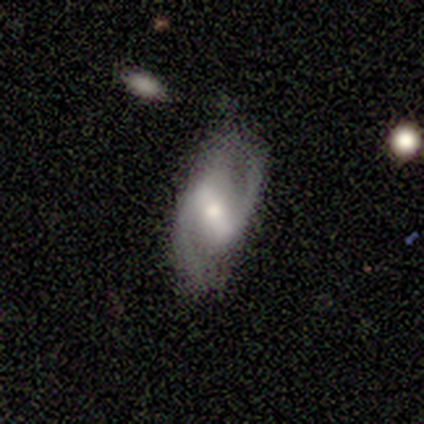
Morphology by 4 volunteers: Volunteers were most divided on "spiral winding" (2-way tie): medium: 50%, loose: 50%, tight: 0%; "merging" (2-way tie): none: 50%, minor disturbance: 50%, major disturbance: 0%, merger: 0%. More confident: smooth or featured — featured or disk (100%); edge-on disk — no (100%); bar — strong (100%); spiral arms — yes (100%); spiral arm count — 2 (75%); bulge size — small (50%).